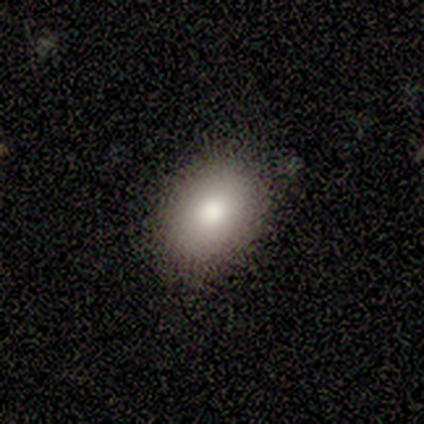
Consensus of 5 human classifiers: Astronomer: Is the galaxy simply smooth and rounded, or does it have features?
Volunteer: smooth — 100%.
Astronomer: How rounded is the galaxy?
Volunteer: in between — 100%.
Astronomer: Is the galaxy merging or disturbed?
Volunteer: none — 80%.